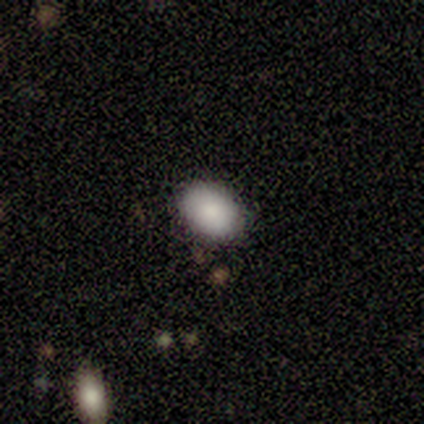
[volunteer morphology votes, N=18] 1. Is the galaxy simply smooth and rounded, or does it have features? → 89% smooth, 11% featured or disk, 0% star or artifact.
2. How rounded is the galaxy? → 81% in between, 19% round, 0% cigar-shaped.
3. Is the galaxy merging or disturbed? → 89% none, 6% minor disturbance, 6% major disturbance, 0% merger.